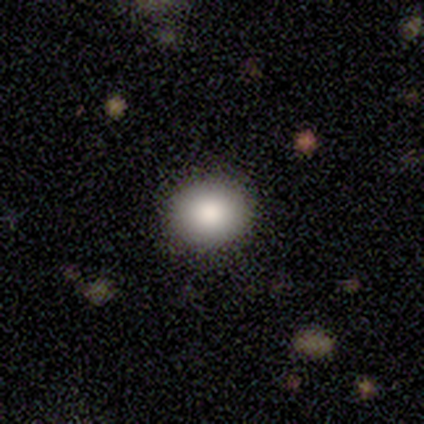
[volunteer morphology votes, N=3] Overall: smooth (100%). How rounded: round (67%; in between 33%). Merging: none (100%).